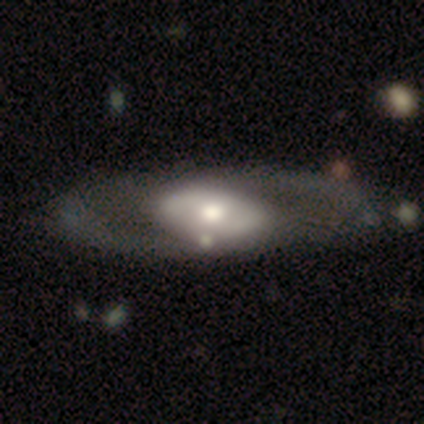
smooth_or_featured: featured or disk (p=0.67) [alt: smooth p=0.25]
disk_edge_on: no (p=1.00)
bar: no (p=0.75) [alt: weak p=0.16]
has_spiral_arms: no (p=0.53) [alt: yes p=0.47]
bulge_size: moderate (p=0.62) [alt: large p=0.28]
merging: none (p=0.73) [alt: minor disturbance p=0.18]